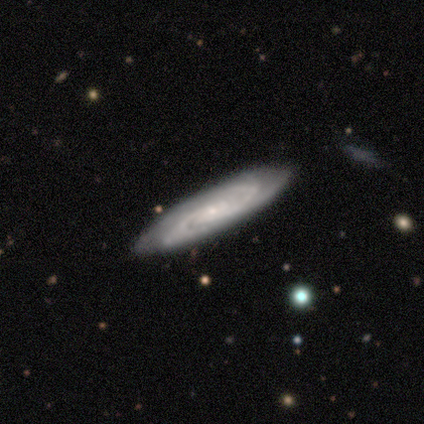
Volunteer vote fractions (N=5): Smooth or featured? featured or disk (100%)
Edge-on disk? no (100%)
Bar? no (60%)
Spiral arms? yes (100%)
Spiral winding? tight (40%, tied with medium)
Spiral arm count? 2 (60%)
Bulge size? small (80%)
Merging? none (100%)